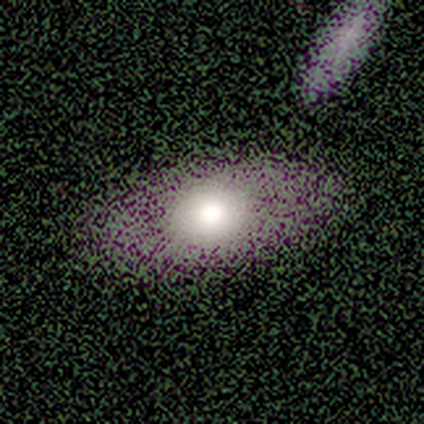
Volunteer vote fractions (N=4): smooth_or_featured: smooth (p=0.75) [alt: featured or disk p=0.25]
how_rounded: in between (p=1.00)
merging: none (p=0.75) [alt: merger p=0.25]